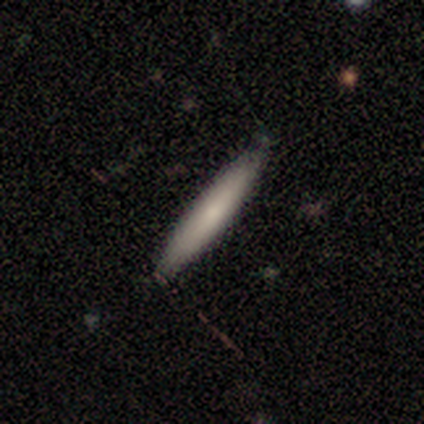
Q: Smooth or featured?
A: smooth (80%); runner-up: featured or disk (20%)
Q: How rounded?
A: cigar-shaped (100%)
Q: Merging?
A: none (80%); runner-up: minor disturbance (20%)